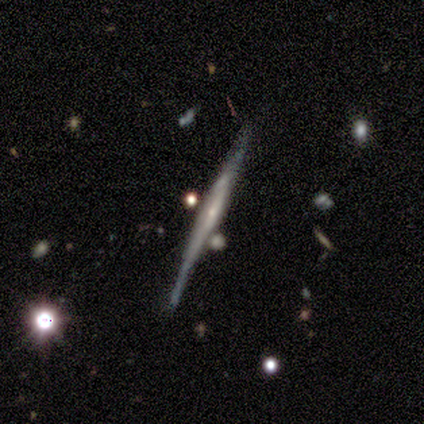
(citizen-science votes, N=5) smooth_or_featured: featured or disk (p=0.60) [alt: smooth p=0.40]
disk_edge_on: yes (p=1.00)
edge_on_bulge: boxy (p=0.67) [alt: rounded p=0.33]
merging: none (p=0.80) [alt: minor disturbance p=0.20]